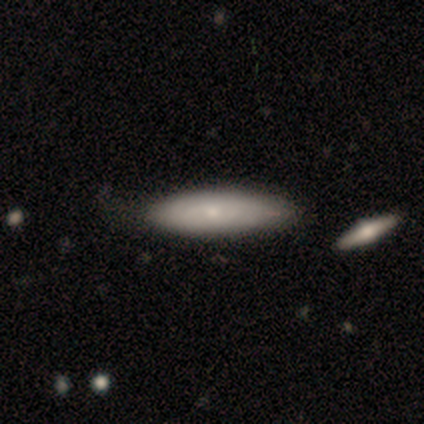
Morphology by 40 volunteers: smooth-or-featured: smooth: 62% | featured or disk: 35% | star or artifact: 2%
  how-rounded: cigar-shaped: 56% | in between: 40% | round: 4%
  merging: none: 54% | merger: 13% | minor disturbance: 10% | major disturbance: 5%